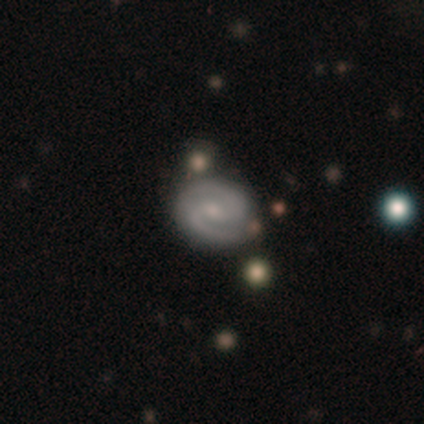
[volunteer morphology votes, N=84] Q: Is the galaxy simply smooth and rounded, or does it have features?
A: featured or disk — 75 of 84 (89%).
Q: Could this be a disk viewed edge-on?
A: no — 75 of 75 (100%).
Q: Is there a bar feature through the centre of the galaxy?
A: no — 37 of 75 (49%).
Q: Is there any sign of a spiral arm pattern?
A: yes — 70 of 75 (93%).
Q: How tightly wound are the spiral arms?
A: medium — 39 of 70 (56%).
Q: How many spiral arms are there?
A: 2 — 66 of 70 (94%).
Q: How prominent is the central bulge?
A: small — 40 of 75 (53%).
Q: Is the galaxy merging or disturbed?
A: none — 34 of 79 (43%).